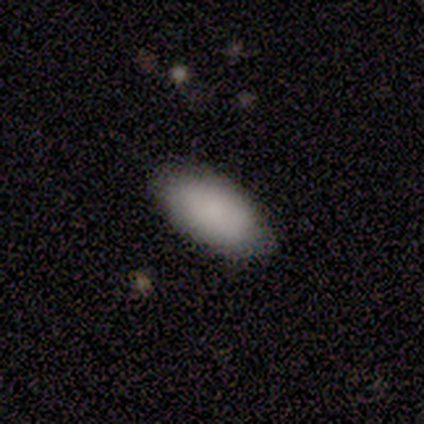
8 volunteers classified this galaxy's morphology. smooth_or_featured: smooth (p=0.62) [alt: featured or disk p=0.25]
how_rounded: in between (p=1.00)
merging: none (p=0.86) [alt: minor disturbance p=0.14]